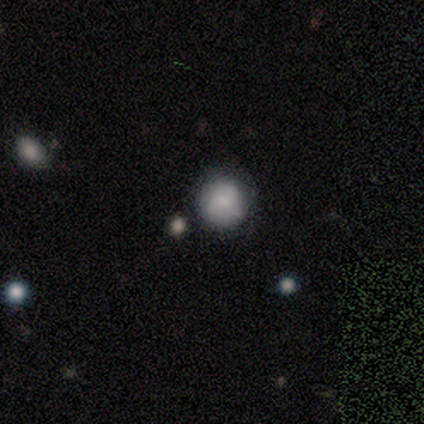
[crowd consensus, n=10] Volunteers were most divided on "smooth or featured": smooth: 50%, star or artifact: 30%, featured or disk: 20%. More confident: merging — none (100%); how rounded — round (80%).